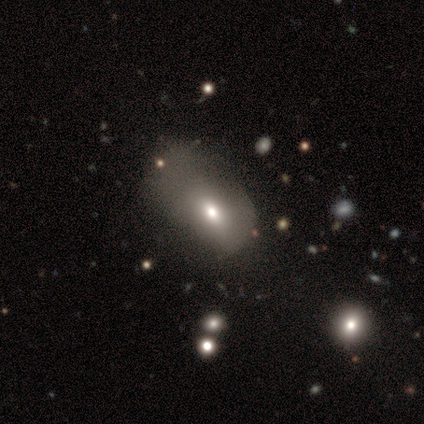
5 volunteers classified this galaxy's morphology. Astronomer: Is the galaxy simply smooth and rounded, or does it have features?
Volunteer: smooth — 40%, tied with featured or disk at 40%.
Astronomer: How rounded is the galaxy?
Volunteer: in between — 100%.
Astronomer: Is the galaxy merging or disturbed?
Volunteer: none — 50%.